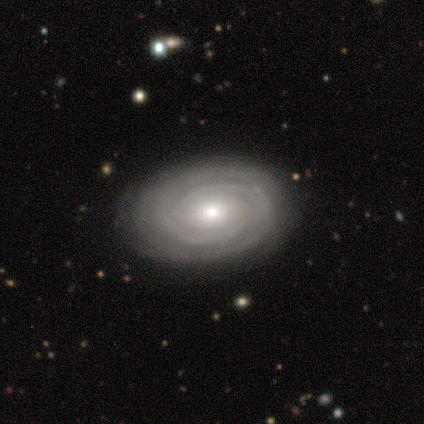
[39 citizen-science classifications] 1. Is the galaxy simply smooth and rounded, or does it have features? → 79% featured or disk, 21% smooth, 0% star or artifact.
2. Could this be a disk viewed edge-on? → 97% no, 3% yes.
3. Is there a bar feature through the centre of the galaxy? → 83% no, 13% weak, 3% strong.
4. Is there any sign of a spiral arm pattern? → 90% yes, 10% no.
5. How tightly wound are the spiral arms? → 89% tight, 11% medium, 0% loose.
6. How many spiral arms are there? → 41% 2 (tied), 41% can't tell (tied), 11% 3, 7% 4, 0% 1, 0% more than 4.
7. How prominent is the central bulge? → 50% moderate, 40% small, 10% large, 0% dominant, 0% none.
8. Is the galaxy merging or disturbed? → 87% none, 10% minor disturbance, 3% major disturbance, 0% merger.